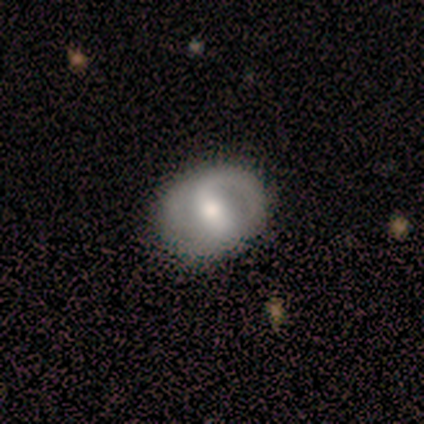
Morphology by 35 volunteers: A featured or disk galaxy (69%) with a strong bar (39%), 2 (50%) medium (50%) spiral arms (78%) and a moderate central bulge (65%). Merging: none (75%).